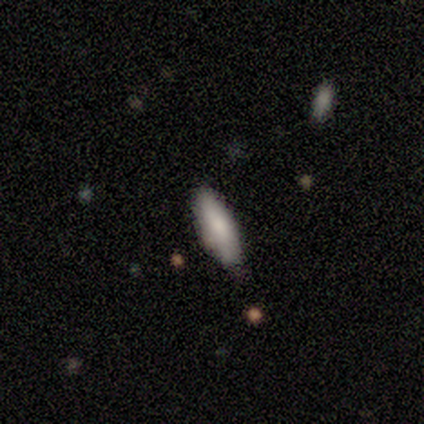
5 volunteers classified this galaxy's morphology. This appears to be a smooth galaxy with no disk features (60%) that is in between round and cigar-shaped (67%). Merging: none (75%).